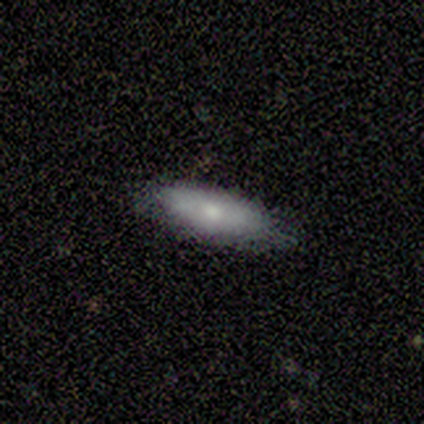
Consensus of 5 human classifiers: Volunteers were most divided on "how rounded" (2-way tie): in between: 50%, cigar-shaped: 50%, round: 0%. More confident: merging — none (100%); smooth or featured — smooth (80%).